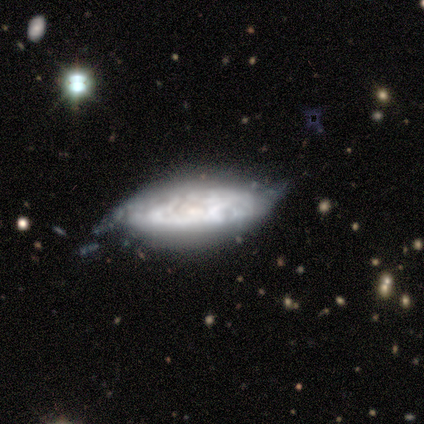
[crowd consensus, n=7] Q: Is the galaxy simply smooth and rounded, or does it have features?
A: smooth — 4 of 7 (57%).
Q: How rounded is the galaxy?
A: in between — 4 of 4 (100%).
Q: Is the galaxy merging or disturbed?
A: none — 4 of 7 (57%).